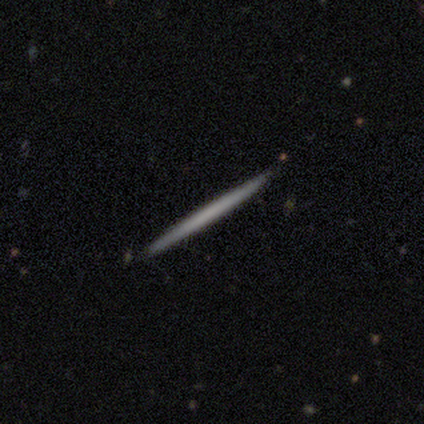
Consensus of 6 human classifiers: Morphology: type=smooth (67%); roundness=cigar-shaped (100%); merging=none (100%).